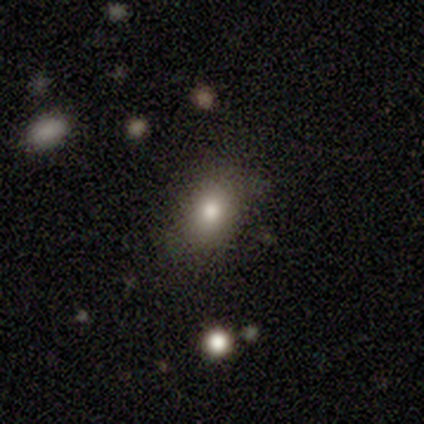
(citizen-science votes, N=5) A smooth galaxy with no disk features (60%) that is in between round and cigar-shaped (67%). Merging: none (100%).